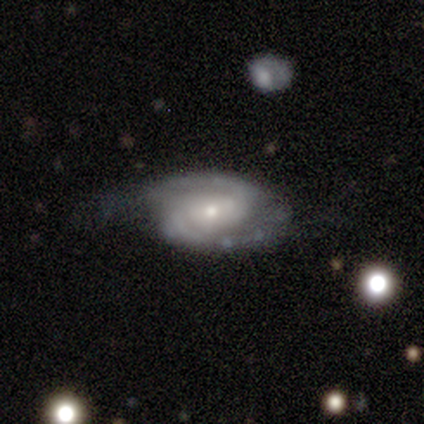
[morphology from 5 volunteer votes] Smooth or featured?
  - featured or disk: 80% *
  - star or artifact: 20%
  - smooth: 0%
Edge-on disk?
  - yes: 50% * (tied)
  - no: 50% * (tied)
Edge-on bulge?
  - rounded: 100% *
  - boxy: 0%
  - none: 0%
Merging?
  - minor disturbance: 50% * (tied)
  - major disturbance: 50% * (tied)
  - none: 0%
  - merger: 0%